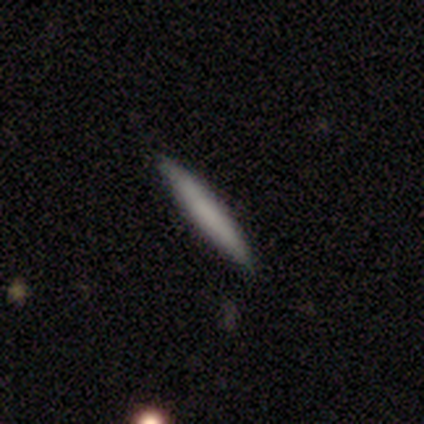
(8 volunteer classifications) A smooth galaxy with no disk features (88%) that is cigar-shaped (100%). Merging: none (100%).